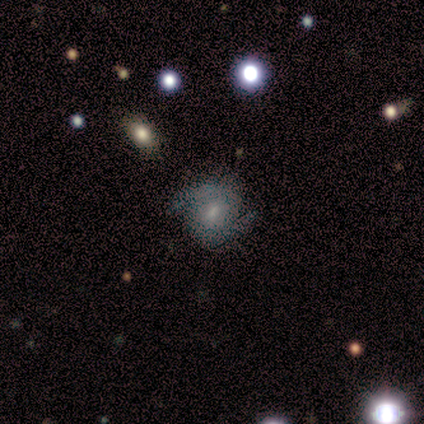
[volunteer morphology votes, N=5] Smooth or featured?
  - featured or disk: 100% *
  - smooth: 0%
  - star or artifact: 0%
Edge-on disk?
  - no: 100% *
  - yes: 0%
Bar?
  - no: 60% *
  - weak: 40%
  - strong: 0%
Spiral arms?
  - yes: 100% *
  - no: 0%
Spiral winding?
  - medium: 60% *
  - tight: 20%
  - loose: 20%
Spiral arm count?
  - 2: 100% *
  - 1: 0%
  - 3: 0%
  - 4: 0%
  - more than 4: 0%
  - can't tell: 0%
Bulge size?
  - moderate: 40% * (tied)
  - small: 40% * (tied)
  - large: 20%
  - dominant: 0%
  - none: 0%
Merging?
  - none: 60% *
  - minor disturbance: 40%
  - major disturbance: 0%
  - merger: 0%